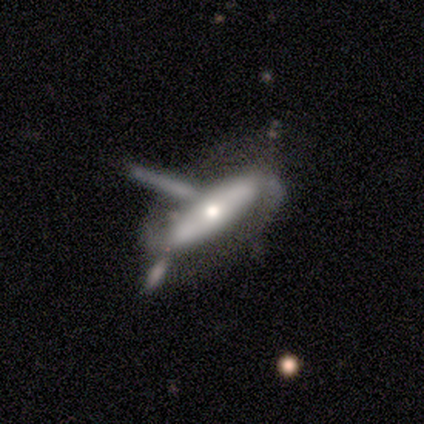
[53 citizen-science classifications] Smooth or featured? featured or disk (64%)
Edge-on disk? no (76%)
Bar? no (65%)
Spiral arms? yes (54%)
Spiral winding? loose (43%)
Spiral arm count? 2 (93%)
Bulge size? moderate (77%)
Merging? none (29%, tied with merger)